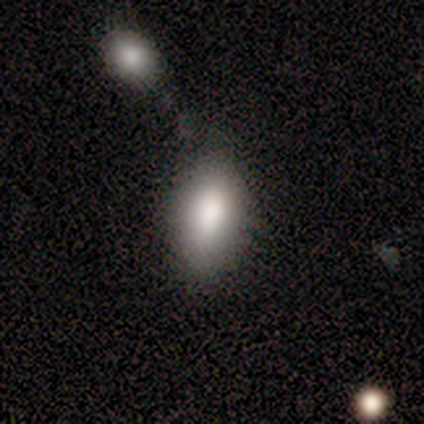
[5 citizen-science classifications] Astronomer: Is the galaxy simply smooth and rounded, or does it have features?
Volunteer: smooth — 100%.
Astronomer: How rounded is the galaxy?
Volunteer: in between — 100%.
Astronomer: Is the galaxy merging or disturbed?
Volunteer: none — 40%, tied with merger at 40%.